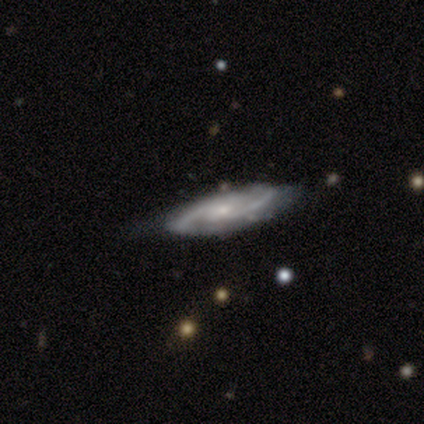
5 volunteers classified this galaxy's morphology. This appears to be a featured or disk galaxy (80%) with a weak bar (50%, tied with no), 2 (100%) medium (75%) spiral arms (100%) and a small central bulge (100%). Merging: none (50%, tied with minor disturbance).